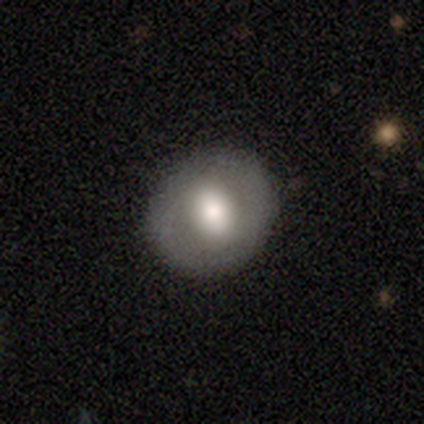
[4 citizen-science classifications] A featured or disk galaxy (50%) with no bar (100%), no spiral arms (100%) and a large central bulge (50%, tied with moderate).

Vote fractions:
- Smooth or featured? featured or disk: 50% / smooth: 25% / star or artifact: 25%
- Edge-on disk? no: 100% / yes: 0%
- Bar? no: 100% / strong: 0% / weak: 0%
- Spiral arms? no: 100% / yes: 0%
- Bulge size? large: 50% (tied) / moderate: 50% (tied) / dominant: 0% / small: 0% / none: 0%
- Merging? none: 100% / minor disturbance: 0% / major disturbance: 0% / merger: 0%